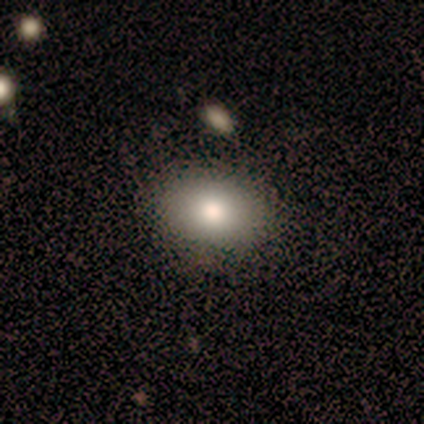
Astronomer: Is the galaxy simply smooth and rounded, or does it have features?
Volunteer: smooth — 72%.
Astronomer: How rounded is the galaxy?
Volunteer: round — 50%, tied with in between at 50%.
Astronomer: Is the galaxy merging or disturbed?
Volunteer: none — 97%.